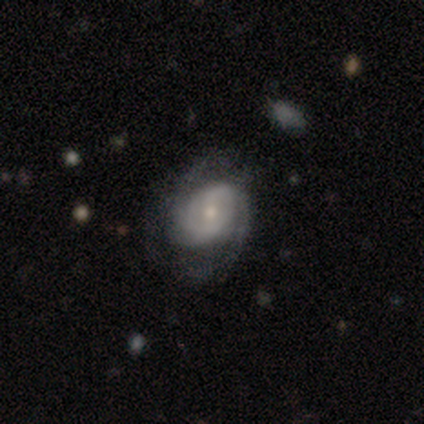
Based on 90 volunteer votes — smooth-or-featured: featured or disk: 80% | smooth: 14% | star or artifact: 6%
  disk-edge-on: no: 99% | yes: 1%
    bar: no: 49% | weak: 42% | strong: 8%
    has-spiral-arms: yes: 87% | no: 13%
      spiral-winding: tight: 53% | medium: 34% | loose: 13%
      spiral-arm-count: 2: 63% | can't tell: 24% | 3: 10% | 1: 2% | 4: 2% | more than 4: 0%
    bulge-size: small: 51% | moderate: 45% | large: 3% | none: 1% | dominant: 0%
  merging: none: 60% | minor disturbance: 25% | major disturbance: 15% | merger: 0%